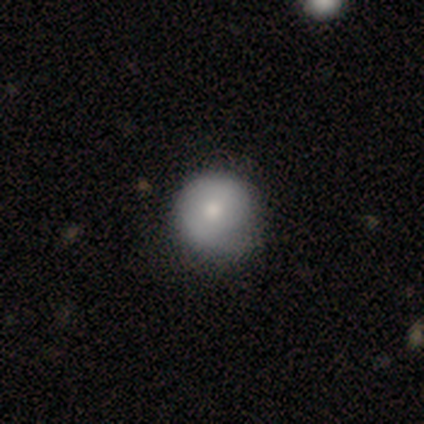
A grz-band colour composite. It shows a smooth galaxy with no disk features (100%) that is round (100%). Merging: none (100%).